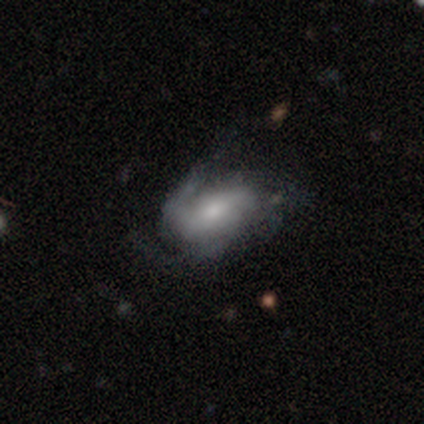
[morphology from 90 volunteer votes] A featured or disk galaxy (64%) with no bar (42%), 3 (42%) medium (62%) spiral arms (91%) and a moderate central bulge (49%).

Vote fractions:
- Smooth or featured? featured or disk: 64% / smooth: 30% / star or artifact: 6%
- Edge-on disk? no: 98% / yes: 2%
- Bar? no: 42% / weak: 35% / strong: 23%
- Spiral arms? yes: 91% / no: 9%
- Spiral winding? medium: 62% / tight: 27% / loose: 12%
- Spiral arm count? 3: 42% / 2: 33% / can't tell: 17% / 1: 4% / 4: 4% / more than 4: 0%
- Bulge size? moderate: 49% / small: 30% / none: 9% / large: 7% / dominant: 5%
- Merging? none: 48% / minor disturbance: 32% / major disturbance: 19% / merger: 1%